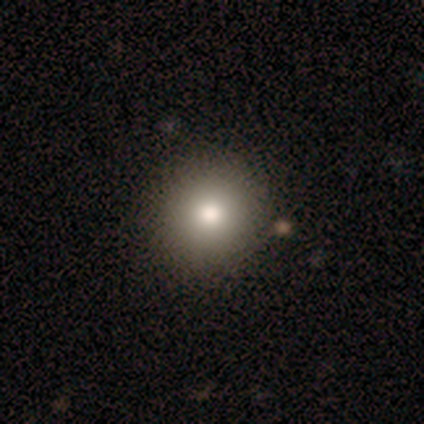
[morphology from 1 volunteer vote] A smooth galaxy with no disk features (100%) that is round (100%). Merging: none (100%).